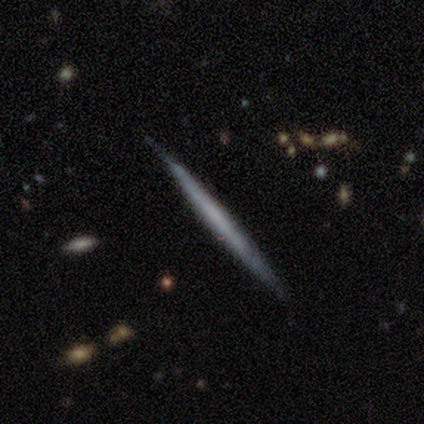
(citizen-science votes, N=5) smooth-or-featured: smooth: 40% (tied) | featured or disk: 40% (tied) | star or artifact: 20%
  how-rounded: cigar-shaped: 100% | round: 0% | in between: 0%
  merging: none: 100% | minor disturbance: 0% | major disturbance: 0% | merger: 0%